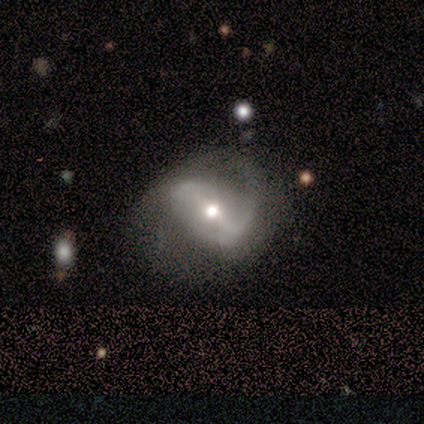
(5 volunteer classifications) Morphology: type=featured or disk (100%); edge-on=no (100%); bar=weak (60%); spiral arms=yes (100%); winding=loose (60%); arm count=2 (80%); bulge=moderate (100%); merging=none (40%, tied with major disturbance).